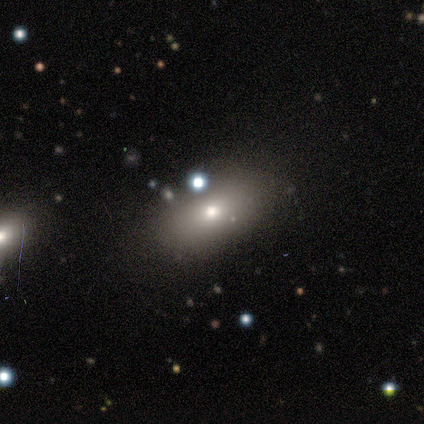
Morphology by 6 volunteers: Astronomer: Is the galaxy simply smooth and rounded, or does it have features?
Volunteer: featured or disk — 50% (runner-up: smooth, 33%).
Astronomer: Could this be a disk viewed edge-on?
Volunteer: no — 100%.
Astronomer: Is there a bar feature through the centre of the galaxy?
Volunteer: no — 100%.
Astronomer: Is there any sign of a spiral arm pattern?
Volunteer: no — 100%.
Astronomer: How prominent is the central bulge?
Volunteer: moderate — 100%.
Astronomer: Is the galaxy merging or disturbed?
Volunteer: none — 80%.